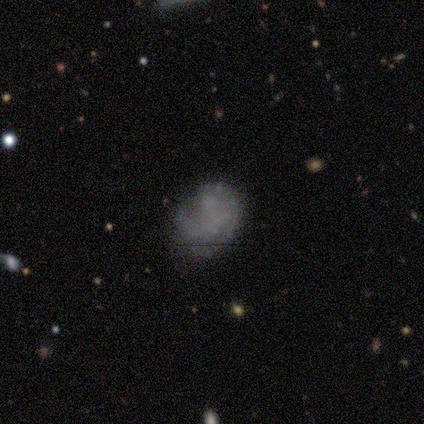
Smooth or featured?
  - smooth: 60% *
  - featured or disk: 40%
  - star or artifact: 0%
How rounded?
  - round: 67% *
  - in between: 33%
  - cigar-shaped: 0%
Merging?
  - none: 80% *
  - minor disturbance: 20%
  - major disturbance: 0%
  - merger: 0%